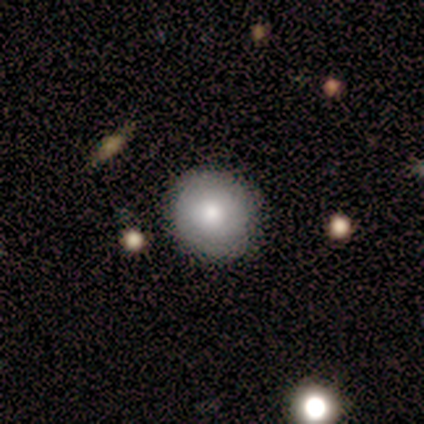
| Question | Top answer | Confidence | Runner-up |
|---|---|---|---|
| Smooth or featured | smooth | 86% | featured or disk (14%) |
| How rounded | round | 83% | in between (17%) |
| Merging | none | 86% | minor disturbance (14%) |